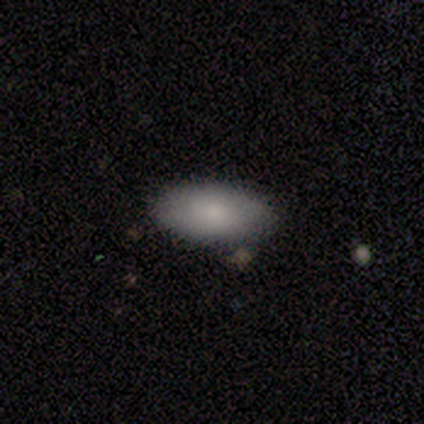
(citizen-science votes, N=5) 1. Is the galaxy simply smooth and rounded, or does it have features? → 80% smooth, 20% star or artifact, 0% featured or disk.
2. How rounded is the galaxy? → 100% in between, 0% round, 0% cigar-shaped.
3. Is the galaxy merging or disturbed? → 100% none, 0% minor disturbance, 0% major disturbance, 0% merger.